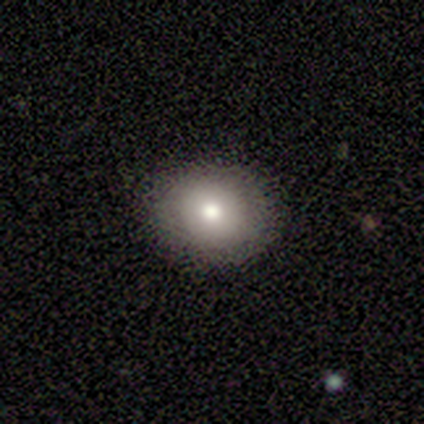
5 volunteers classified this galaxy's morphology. A smooth galaxy with no disk features (80%) that is round (100%).

Vote fractions:
- Smooth or featured? smooth: 80% / featured or disk: 20% / star or artifact: 0%
- How rounded? round: 100% / in between: 0% / cigar-shaped: 0%
- Merging? none: 80% / minor disturbance: 20% / major disturbance: 0% / merger: 0%